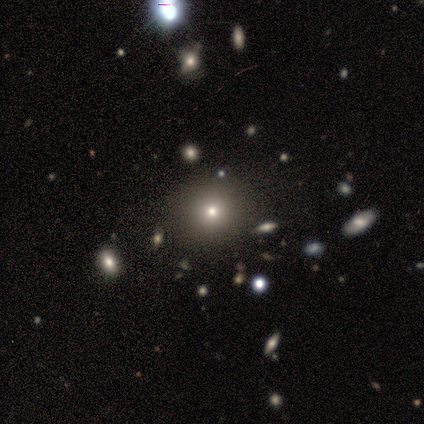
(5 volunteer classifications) smooth-or-featured: smooth: 100% | featured or disk: 0% | star or artifact: 0%
  how-rounded: round: 100% | in between: 0% | cigar-shaped: 0%
  merging: none: 100% | minor disturbance: 0% | major disturbance: 0% | merger: 0%